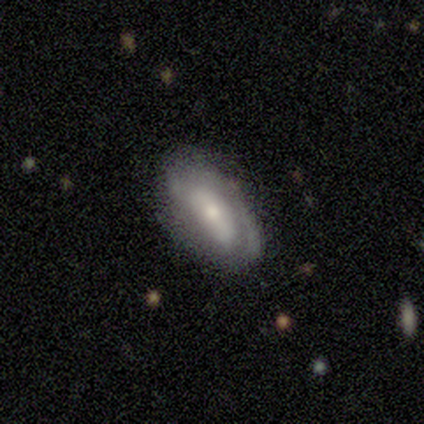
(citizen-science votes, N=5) This appears to be a featured or disk galaxy (100%) with no bar (75%), no spiral arms (75%) and a small central bulge (50%). Merging: none (60%).